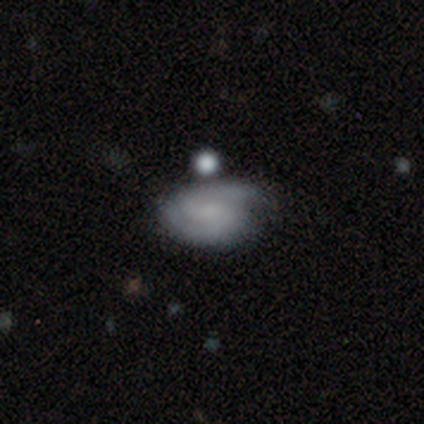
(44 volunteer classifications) A featured or disk galaxy (64%) with no bar (54%), 2 (79%) tight (62%) spiral arms (86%) and no central bulge (64%).

Vote fractions:
- Smooth or featured? featured or disk: 64% / smooth: 30% / star or artifact: 7%
- Edge-on disk? no: 100% / yes: 0%
- Bar? no: 54% / weak: 36% / strong: 11%
- Spiral arms? yes: 86% / no: 14%
- Spiral winding? tight: 62% / medium: 29% / loose: 8%
- Spiral arm count? 2: 79% / can't tell: 12% / 1: 4% / 4: 4% / 3: 0% / more than 4: 0%
- Bulge size? none: 64% / small: 25% / dominant: 7% / moderate: 4% / large: 0%
- Merging? none: 59% / minor disturbance: 24% / major disturbance: 12% / merger: 5%